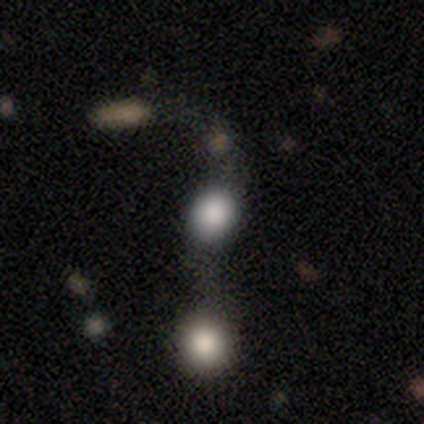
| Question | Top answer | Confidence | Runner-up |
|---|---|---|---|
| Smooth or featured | smooth | 100% | — |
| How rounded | in between | 100% | — |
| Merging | merger | 100% | — |